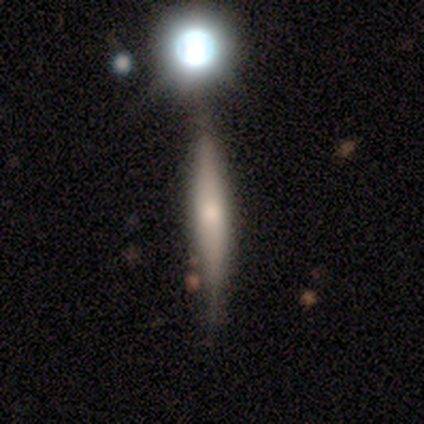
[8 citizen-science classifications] This appears to be a featured or disk galaxy (50%) viewed edge-on (75%) with a boxy central bulge (33%, tied with none and rounded). Merging: none (67%).